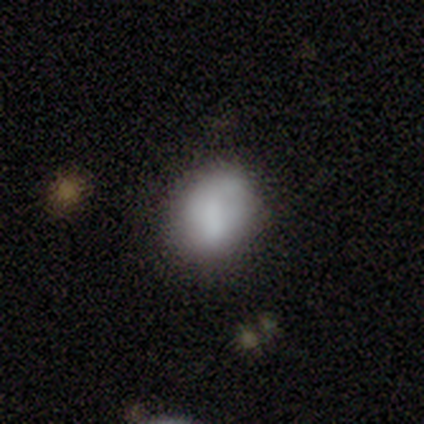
smooth-or-featured: smooth: 80% | featured or disk: 20% | star or artifact: 0%
  how-rounded: round: 50% (tied) | in between: 50% (tied) | cigar-shaped: 0%
  merging: none: 40% (tied) | minor disturbance: 40% (tied) | merger: 20% | major disturbance: 0%